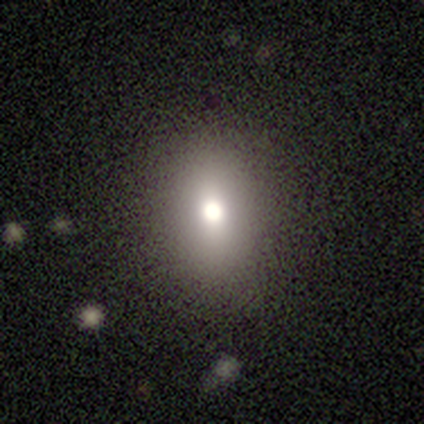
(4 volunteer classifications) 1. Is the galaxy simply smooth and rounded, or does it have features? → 50% smooth (tied), 50% star or artifact (tied), 0% featured or disk.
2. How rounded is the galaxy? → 100% in between, 0% round, 0% cigar-shaped.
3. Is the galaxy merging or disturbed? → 100% none, 0% minor disturbance, 0% major disturbance, 0% merger.